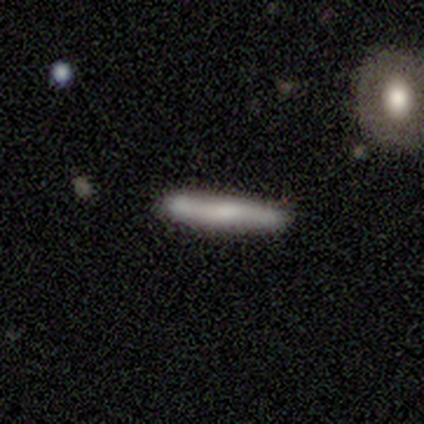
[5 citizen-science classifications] Q: Smooth or featured?
A: smooth (80%); runner-up: featured or disk (20%)
Q: How rounded?
A: cigar-shaped (100%)
Q: Merging?
A: none (100%)